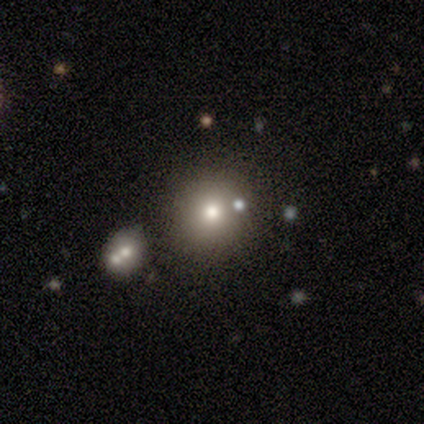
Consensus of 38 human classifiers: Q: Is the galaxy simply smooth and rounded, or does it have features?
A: smooth — 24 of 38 (63%).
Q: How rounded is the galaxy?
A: round — 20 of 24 (83%).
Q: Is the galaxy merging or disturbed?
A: none — 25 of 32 (78%).